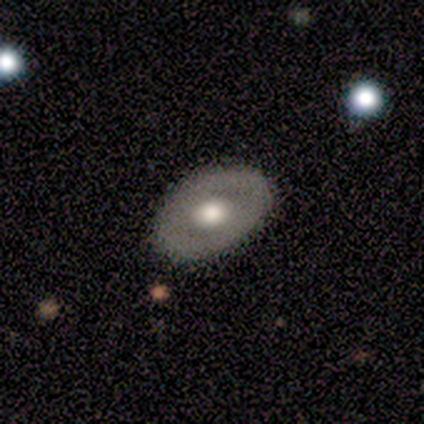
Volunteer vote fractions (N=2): This appears to be a featured or disk galaxy (100%) viewed edge-on (50%, tied with no) with a rounded central bulge (100%). Merging: none (100%).